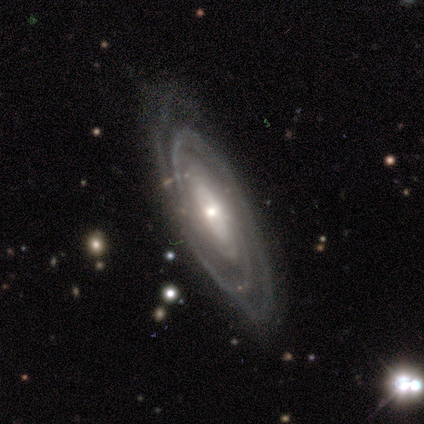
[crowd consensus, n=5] Smooth or featured: featured or disk — 100%
Edge-on disk: no — 80% (yes — 20%)
Bar: no — 50% (strong — 25%)
Spiral arms: yes — 100%
Spiral winding: medium — 75% (tight — 25%)
Spiral arm count: can't tell — 50% (1 — 25%)
Bulge size: moderate — 75% (small — 25%)
Merging: none — 100%